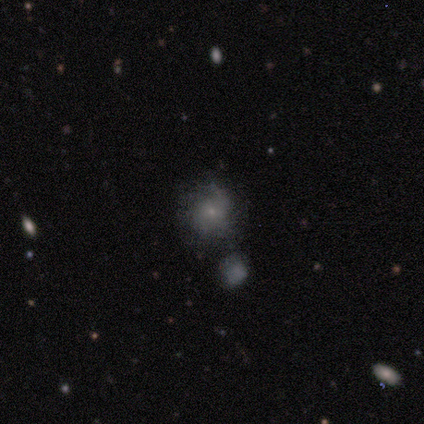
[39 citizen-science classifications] This is likely a smooth galaxy (64%). How rounded: clearly round (88%). Merging: possibly none (47%).